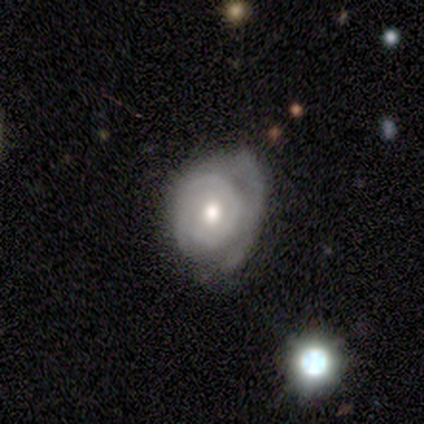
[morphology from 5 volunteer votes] smooth-or-featured: featured or disk: 100% | smooth: 0% | star or artifact: 0%
  disk-edge-on: no: 100% | yes: 0%
    bar: no: 100% | strong: 0% | weak: 0%
    has-spiral-arms: yes: 80% | no: 20%
      spiral-winding: tight: 100% | medium: 0% | loose: 0%
      spiral-arm-count: 2: 50% | 1: 25% | can't tell: 25% | 3: 0% | 4: 0% | more than 4: 0%
    bulge-size: moderate: 100% | dominant: 0% | large: 0% | small: 0% | none: 0%
  merging: major disturbance: 60% | none: 40% | minor disturbance: 0% | merger: 0%